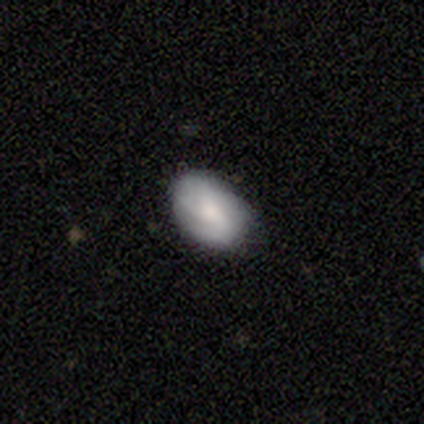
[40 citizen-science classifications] Smooth or featured? smooth (57%)
How rounded? in between (96%)
Merging? none (69%)